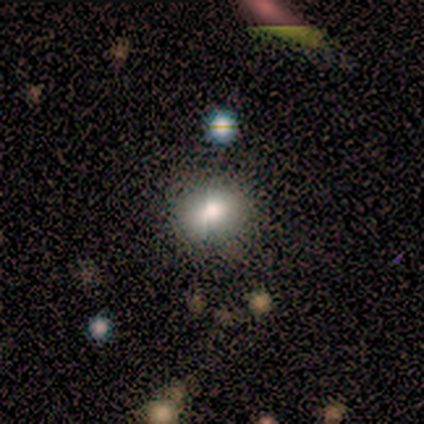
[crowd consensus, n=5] Smooth or featured? 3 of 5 (60%) said smooth. How rounded? 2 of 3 (67%) said round. Merging? 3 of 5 (60%) said minor disturbance.